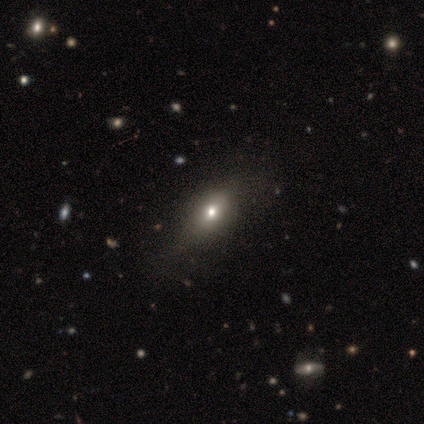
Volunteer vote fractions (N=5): Smooth or featured?
  - smooth: 100% *
  - featured or disk: 0%
  - star or artifact: 0%
How rounded?
  - in between: 40% * (tied)
  - cigar-shaped: 40% * (tied)
  - round: 20%
Merging?
  - none: 80% *
  - minor disturbance: 20%
  - major disturbance: 0%
  - merger: 0%